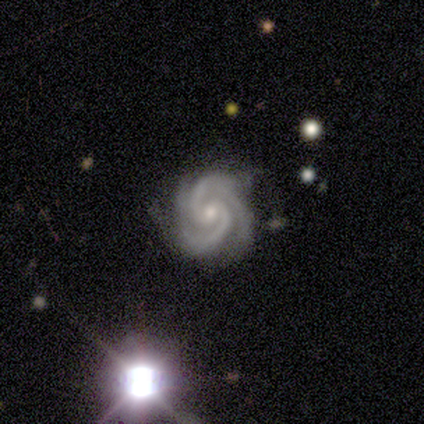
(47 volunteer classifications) A featured or disk galaxy (96%) with no bar (55%), 2 (51%) tight (77%) spiral arms (98%) and a small central bulge (59%). Merging: none (76%).